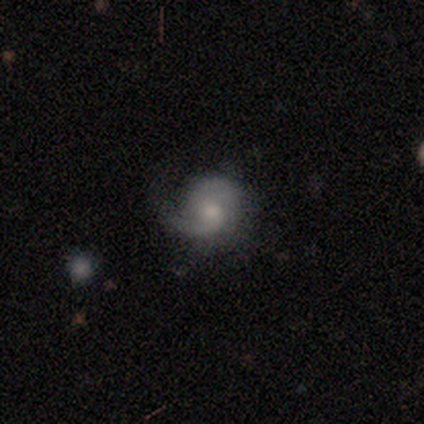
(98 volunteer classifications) This appears to be a featured or disk galaxy (70%) with no bar (75%), 2 (65%) medium (50%) spiral arms (93%) and a moderate central bulge (48%). Merging: none (43%).